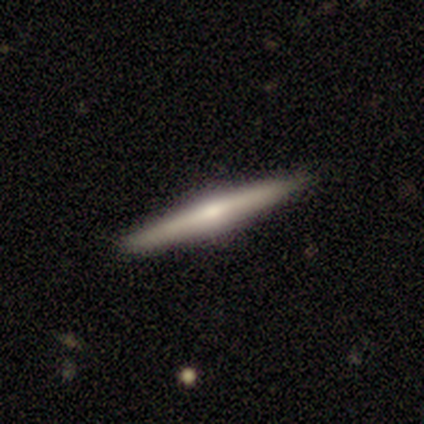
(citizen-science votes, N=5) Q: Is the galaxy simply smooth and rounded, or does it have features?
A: smooth — 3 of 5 (60%).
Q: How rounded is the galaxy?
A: cigar-shaped — 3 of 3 (100%).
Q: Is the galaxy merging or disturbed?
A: none — 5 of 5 (100%).